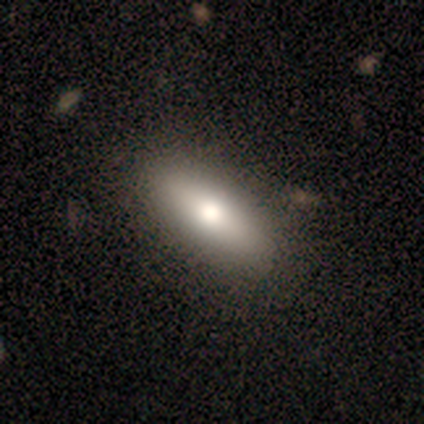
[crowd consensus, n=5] Q: Smooth or featured?
A: smooth (100%)
Q: How rounded?
A: in between (60%); runner-up: cigar-shaped (40%)
Q: Merging?
A: none (80%); runner-up: minor disturbance (20%)